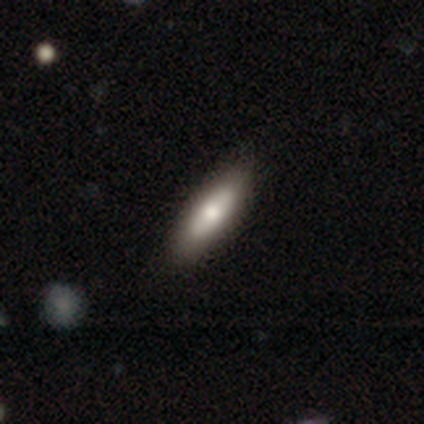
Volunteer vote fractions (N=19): Q: Smooth or featured?
A: smooth (47%); tied with: featured or disk (47%)
Q: How rounded?
A: cigar-shaped (67%); runner-up: in between (33%)
Q: Merging?
A: none (94%); runner-up: minor disturbance (6%)